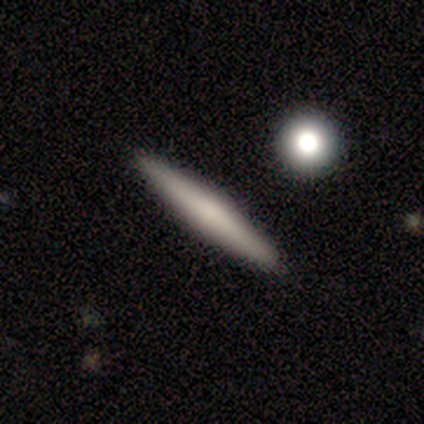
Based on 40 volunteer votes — Volunteers were most divided on "smooth or featured": smooth: 62%, featured or disk: 35%, star or artifact: 2%. More confident: how rounded — cigar-shaped (100%); merging — none (87%).